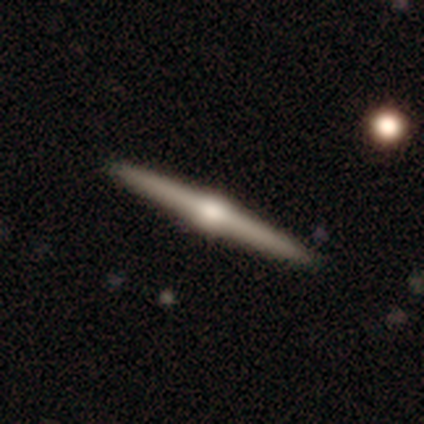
This is clearly a featured or disk galaxy (98%). It is clearly viewed edge-on (100%). Edge-on bulge: clearly rounded (95%). Merging: likely none (70%).